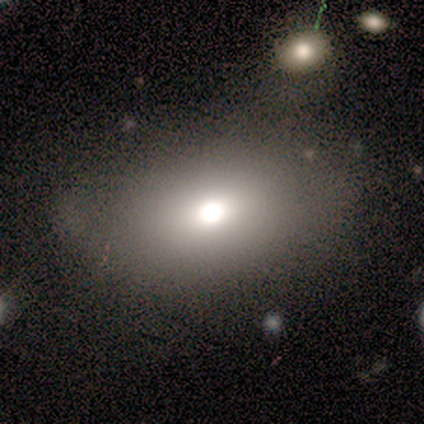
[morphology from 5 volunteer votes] This appears to be a featured or disk galaxy (60%) with no bar (100%), no spiral arms (100%) and a large central bulge (67%). Merging: none (60%).